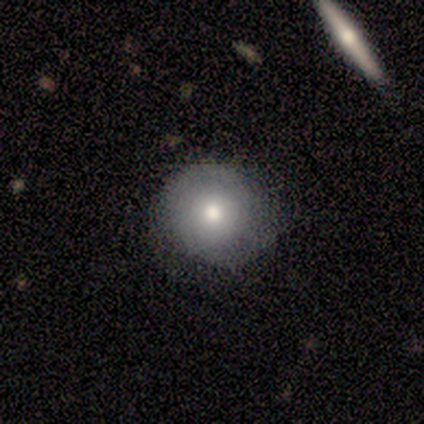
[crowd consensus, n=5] smooth-or-featured: smooth: 60% | featured or disk: 40% | star or artifact: 0%
  how-rounded: round: 100% | in between: 0% | cigar-shaped: 0%
  merging: none: 80% | minor disturbance: 20% | major disturbance: 0% | merger: 0%